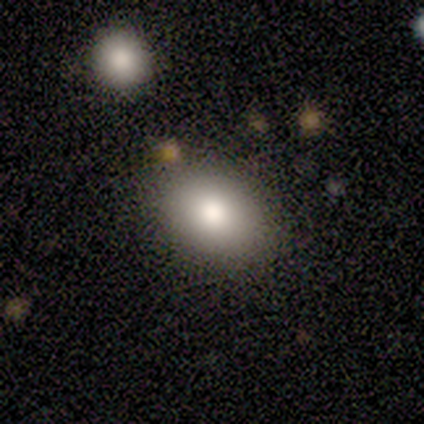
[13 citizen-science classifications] A smooth galaxy with no disk features (85%) that is in between round and cigar-shaped (82%). Merging: none (82%).